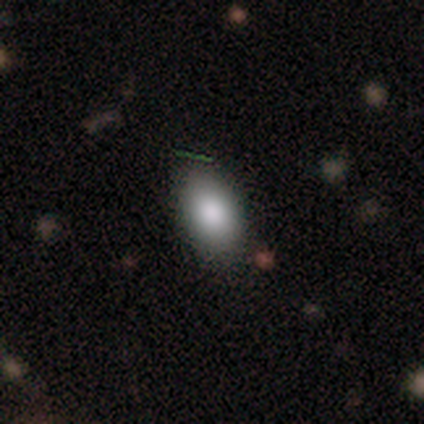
Overall: smooth (88%). How rounded: in between (82%). Merging: none (82%).